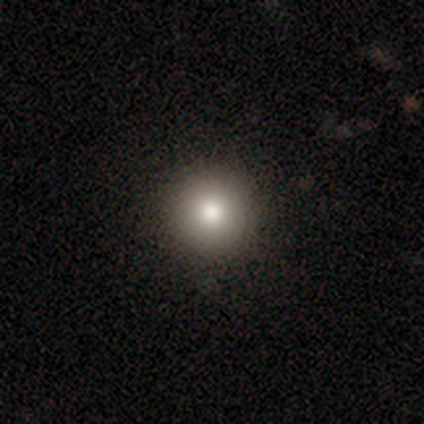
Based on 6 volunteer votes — smooth 67%, star or artifact 33%, featured or disk 0%. Down the decision tree: how rounded — round (100%); merging — none (100%).